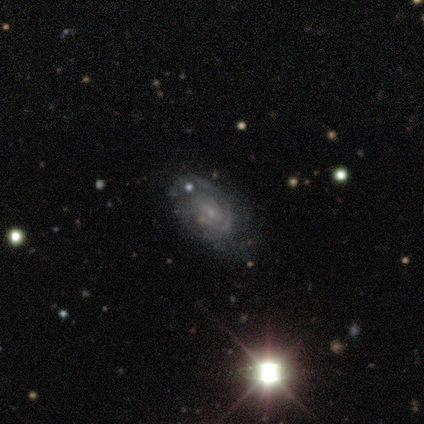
smooth-or-featured: featured or disk: 50% | smooth: 25% | star or artifact: 25%
  disk-edge-on: no: 100% | yes: 0%
    bar: weak: 50% (tied) | no: 50% (tied) | strong: 0%
    has-spiral-arms: yes: 100% | no: 0%
      spiral-winding: tight: 100% | medium: 0% | loose: 0%
      spiral-arm-count: can't tell: 100% | 1: 0% | 2: 0% | 3: 0% | 4: 0% | more than 4: 0%
    bulge-size: small: 50% (tied) | none: 50% (tied) | dominant: 0% | large: 0% | moderate: 0%
  merging: none: 100% | minor disturbance: 0% | major disturbance: 0% | merger: 0%